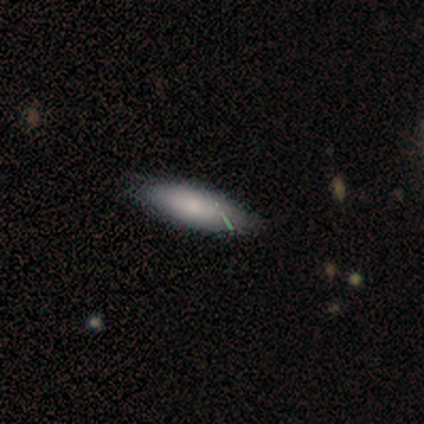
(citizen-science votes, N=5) Smooth or featured? smooth (60%)
How rounded? cigar-shaped (67%)
Merging? none (100%)